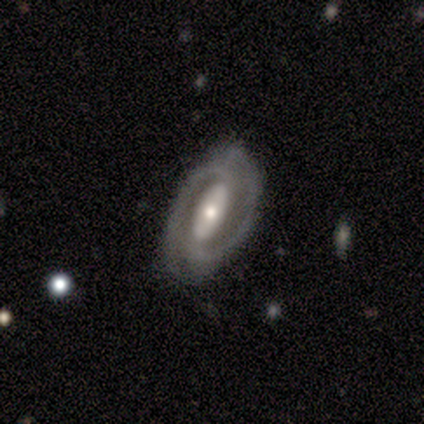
smooth-or-featured: featured or disk: 100% | smooth: 0% | star or artifact: 0%
  disk-edge-on: no: 100% | yes: 0%
    bar: strong: 53% | no: 40% | weak: 7%
    has-spiral-arms: yes: 87% | no: 13%
      spiral-winding: medium: 54% | tight: 31% | loose: 15%
      spiral-arm-count: 2: 100% | 1: 0% | 3: 0% | 4: 0% | more than 4: 0% | can't tell: 0%
    bulge-size: moderate: 67% | small: 20% | large: 13% | dominant: 0% | none: 0%
  merging: none: 87% | minor disturbance: 13% | major disturbance: 0% | merger: 0%